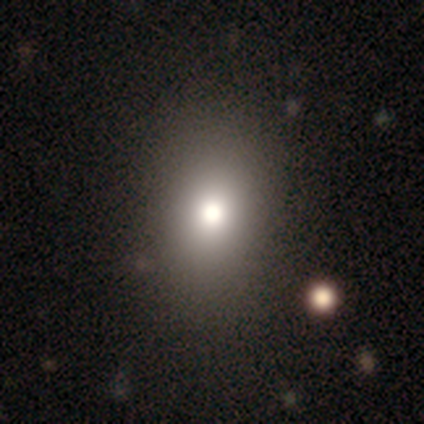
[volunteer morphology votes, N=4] type=smooth (100%); roundness=round (50%, tied with in between); merging=none (50%, tied with merger).